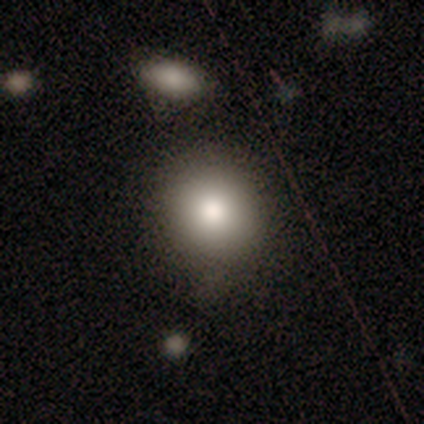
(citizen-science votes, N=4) A smooth galaxy with no disk features (100%) that is round (75%). Merging: none (50%, tied with major disturbance).